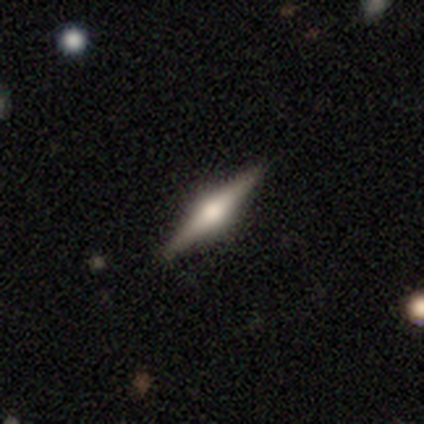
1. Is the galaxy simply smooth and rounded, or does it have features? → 80% featured or disk, 20% smooth, 0% star or artifact.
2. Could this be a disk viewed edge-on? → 100% yes, 0% no.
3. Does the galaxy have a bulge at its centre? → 75% rounded, 25% boxy, 0% none.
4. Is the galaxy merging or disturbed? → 100% none, 0% minor disturbance, 0% major disturbance, 0% merger.